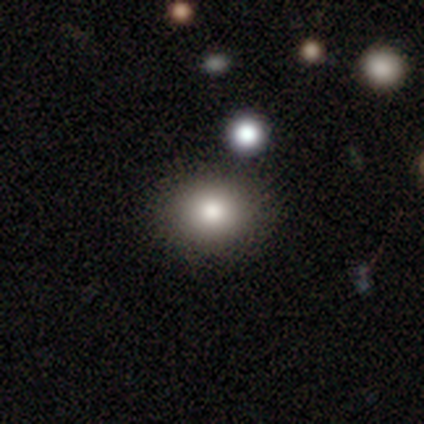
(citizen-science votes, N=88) Smooth or featured? 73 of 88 (83%) said smooth. How rounded? 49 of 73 (67%) said round. Merging? 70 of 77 (91%) said none.